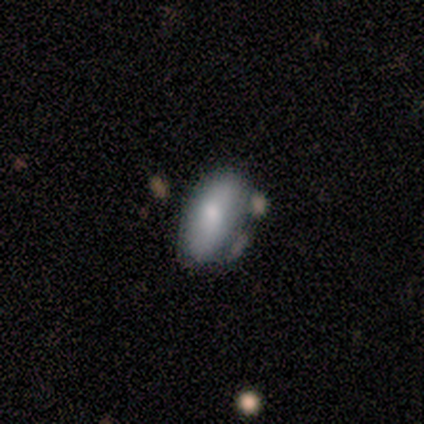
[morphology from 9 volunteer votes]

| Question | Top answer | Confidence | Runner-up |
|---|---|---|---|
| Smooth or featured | smooth | 67% | featured or disk (22%) |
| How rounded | in between | 100% | — |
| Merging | none | 75% | minor disturbance (12%) |